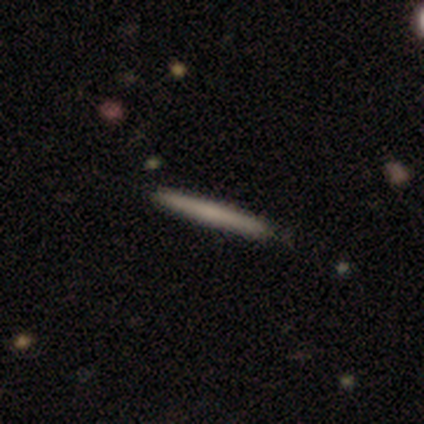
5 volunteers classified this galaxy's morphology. type=smooth (100%); roundness=cigar-shaped (100%); merging=none (100%).